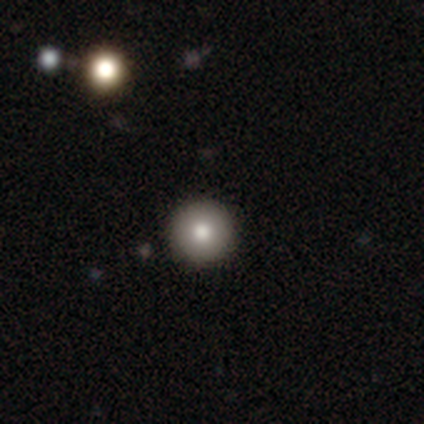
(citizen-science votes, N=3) Smooth or featured: smooth — 67% (featured or disk — 33%)
How rounded: round — 100%
Merging: none — 100%